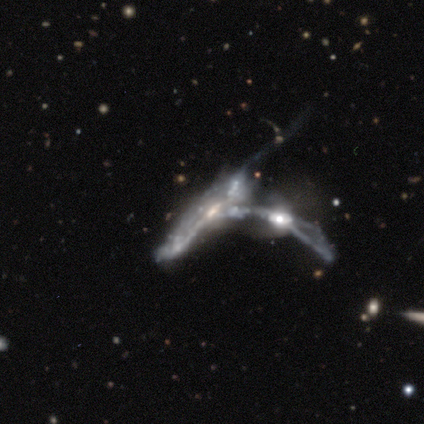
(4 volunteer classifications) featured or disk 50% (tied), star or artifact 50% (tied), smooth 0%. Down the decision tree: edge-on disk — yes (50%, tied with no); edge-on bulge — none (100%); merging — major disturbance (50%, tied with merger).